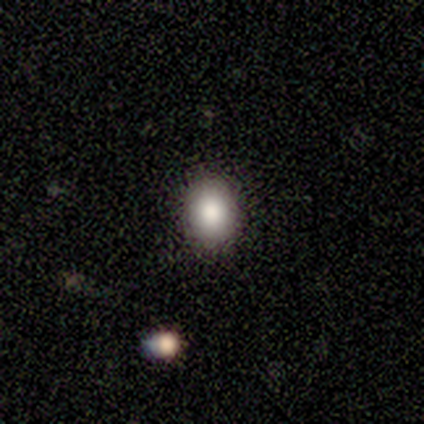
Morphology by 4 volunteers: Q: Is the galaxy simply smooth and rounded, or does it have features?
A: smooth — 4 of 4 (100%).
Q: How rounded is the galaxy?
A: round — 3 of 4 (75%).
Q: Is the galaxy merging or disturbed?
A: none — 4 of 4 (100%).